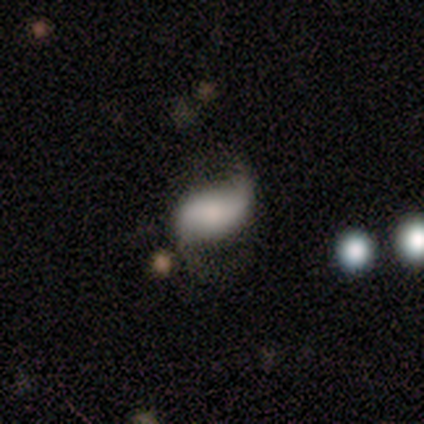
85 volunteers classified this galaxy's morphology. Smooth or featured? featured or disk (59%)
Edge-on disk? no (100%)
Bar? no (48%)
Spiral arms? yes (88%)
Spiral winding? loose (73%)
Spiral arm count? 2 (93%)
Bulge size? moderate (26%)
Merging? none (43%)